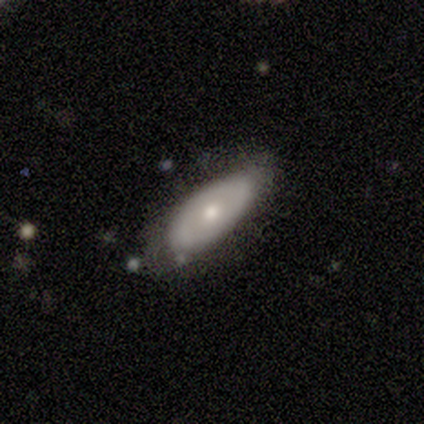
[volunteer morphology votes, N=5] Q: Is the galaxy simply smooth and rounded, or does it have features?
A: featured or disk — 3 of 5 (60%).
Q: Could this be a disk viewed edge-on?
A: no — 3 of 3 (100%).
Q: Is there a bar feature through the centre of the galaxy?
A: no — 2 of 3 (67%).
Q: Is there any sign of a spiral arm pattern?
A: no — 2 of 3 (67%).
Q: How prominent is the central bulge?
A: small — 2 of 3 (67%).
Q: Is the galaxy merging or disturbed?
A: none — 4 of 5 (80%).